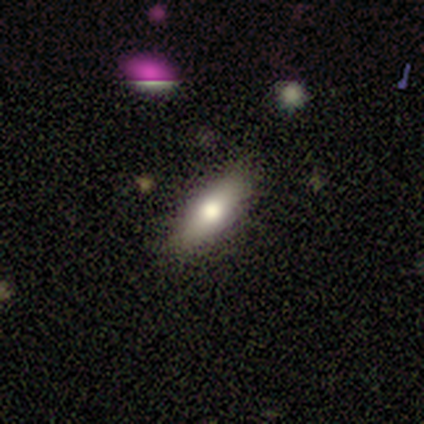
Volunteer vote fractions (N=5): Smooth or featured?
  - smooth: 60% *
  - featured or disk: 20%
  - star or artifact: 20%
How rounded?
  - in between: 100% *
  - round: 0%
  - cigar-shaped: 0%
Merging?
  - none: 75% *
  - minor disturbance: 25%
  - major disturbance: 0%
  - merger: 0%